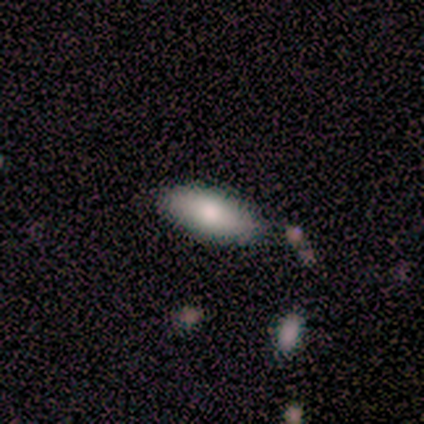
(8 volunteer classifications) Smooth or featured?
  - smooth: 62% *
  - featured or disk: 25%
  - star or artifact: 12%
How rounded?
  - in between: 80% *
  - cigar-shaped: 20%
  - round: 0%
Merging?
  - none: 71% *
  - minor disturbance: 14%
  - major disturbance: 14%
  - merger: 0%